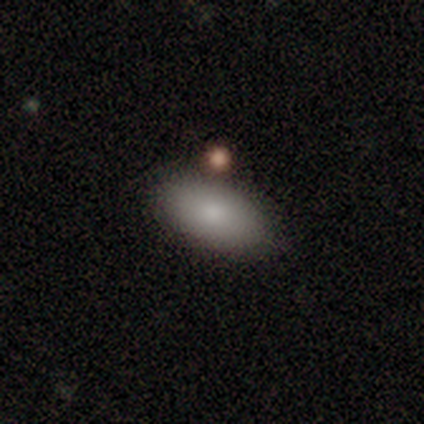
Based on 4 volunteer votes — Smooth or featured? smooth (100%)
How rounded? in between (100%)
Merging? none (75%)